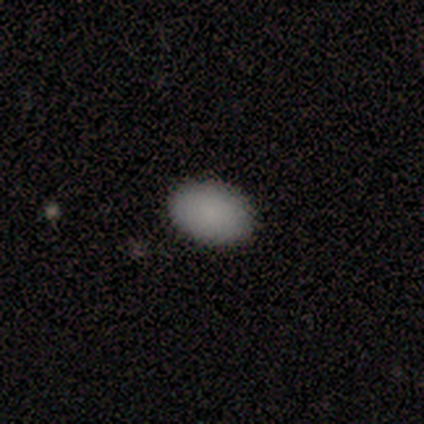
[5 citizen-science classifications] Smooth or featured?
  - smooth: 100% *
  - featured or disk: 0%
  - star or artifact: 0%
How rounded?
  - in between: 100% *
  - round: 0%
  - cigar-shaped: 0%
Merging?
  - none: 80% *
  - major disturbance: 20%
  - minor disturbance: 0%
  - merger: 0%